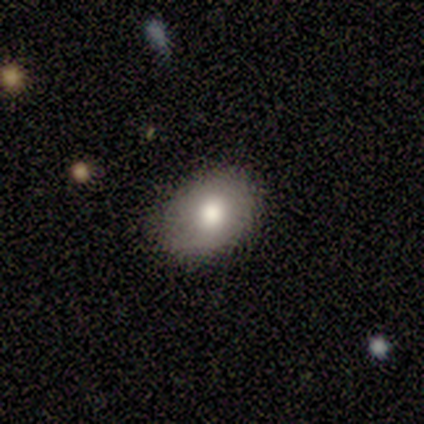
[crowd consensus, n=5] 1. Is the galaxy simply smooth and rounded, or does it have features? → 100% smooth, 0% featured or disk, 0% star or artifact.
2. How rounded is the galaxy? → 80% in between, 20% round, 0% cigar-shaped.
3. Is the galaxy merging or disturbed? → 100% none, 0% minor disturbance, 0% major disturbance, 0% merger.